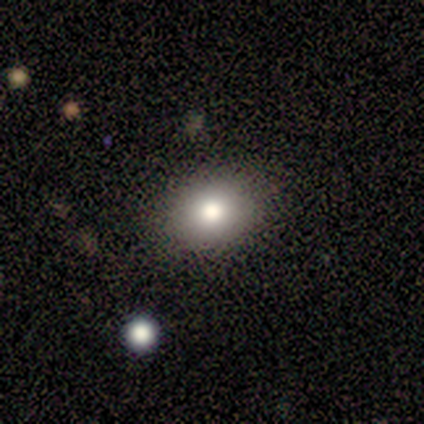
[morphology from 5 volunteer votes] Q: Smooth or featured?
A: smooth (100%)
Q: How rounded?
A: in between (60%); runner-up: round (40%)
Q: Merging?
A: none (100%)